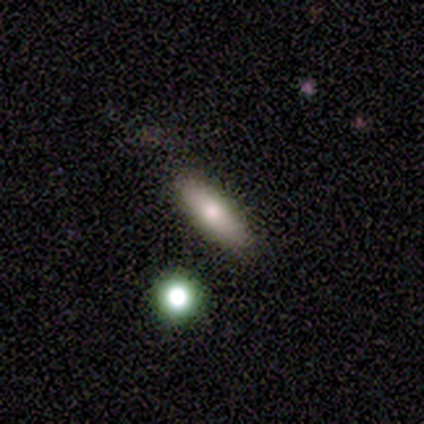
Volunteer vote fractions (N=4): smooth 100%, featured or disk 0%, star or artifact 0%. Down the decision tree: how rounded — in between (100%); merging — none (75%).